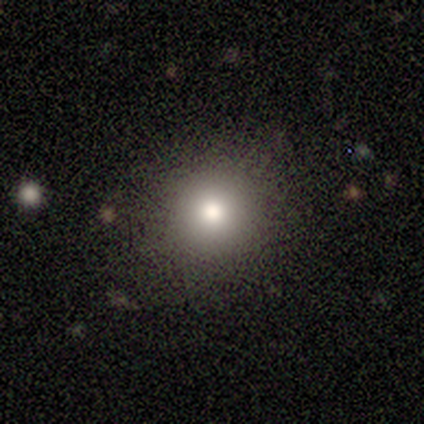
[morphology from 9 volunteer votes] This appears to be a smooth galaxy with no disk features (89%) that is round (100%). Merging: none (100%).